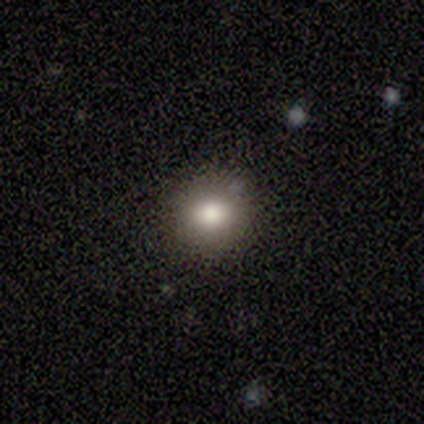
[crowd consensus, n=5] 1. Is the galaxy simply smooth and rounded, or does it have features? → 100% smooth, 0% featured or disk, 0% star or artifact.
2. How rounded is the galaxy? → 80% round, 20% in between, 0% cigar-shaped.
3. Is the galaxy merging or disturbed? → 100% none, 0% minor disturbance, 0% major disturbance, 0% merger.